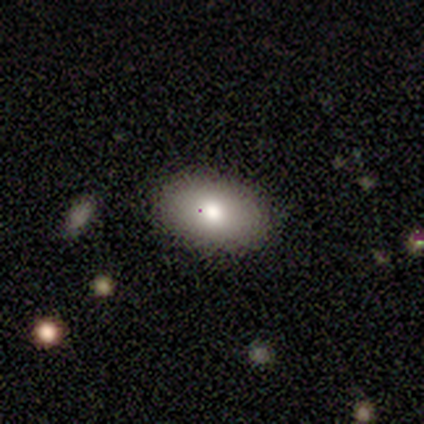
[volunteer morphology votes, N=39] This is clearly a smooth galaxy (82%). How rounded: clearly in between (97%). Merging: likely none (77%).